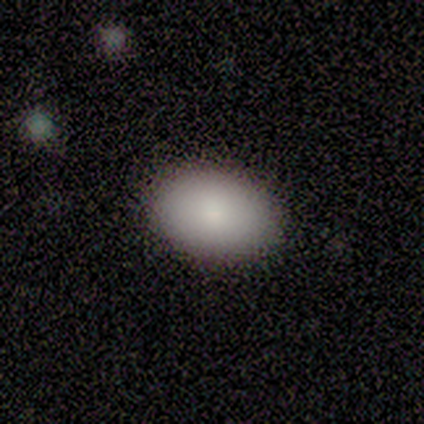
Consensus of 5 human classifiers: A smooth galaxy with no disk features (100%) that is in between round and cigar-shaped (100%).

Vote fractions:
- Smooth or featured? smooth: 100% / featured or disk: 0% / star or artifact: 0%
- How rounded? in between: 100% / round: 0% / cigar-shaped: 0%
- Merging? none: 100% / minor disturbance: 0% / major disturbance: 0% / merger: 0%